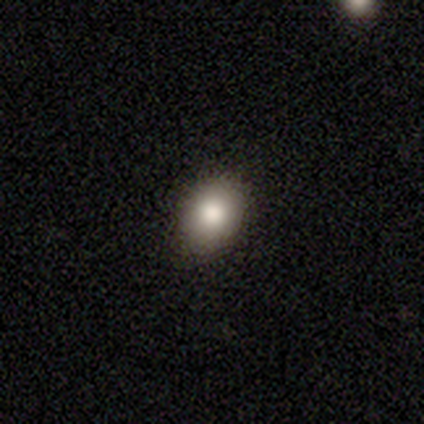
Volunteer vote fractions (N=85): Volunteers were most divided on "how rounded": in between: 59%, round: 41%, cigar-shaped: 0%. More confident: merging — none (92%); smooth or featured — smooth (75%).